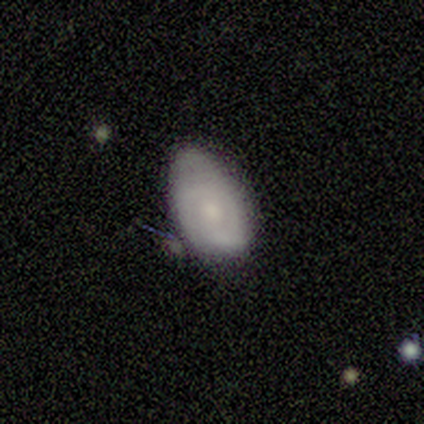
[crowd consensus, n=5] A featured or disk galaxy (60%) with no bar (100%), 2 (100%) tight (50%, tied with medium) spiral arms (67%) and a small central bulge (67%). Merging: none (40%, tied with minor disturbance).